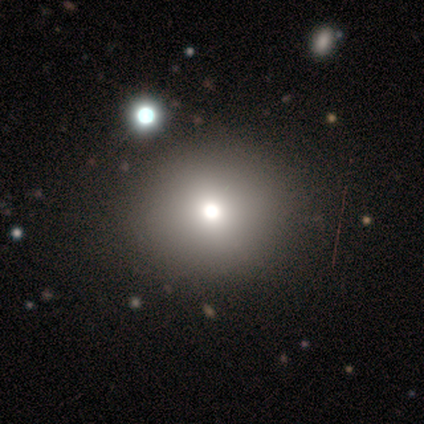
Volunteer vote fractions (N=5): Overall: smooth (40%, tied with star or artifact). How rounded: round (50%, tied with in between). Merging: none (100%).